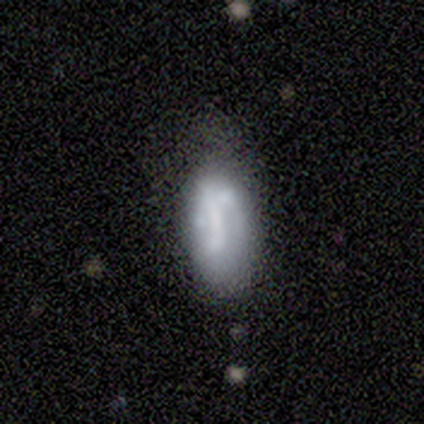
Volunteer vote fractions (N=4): Morphology: type=smooth (75%); roundness=in between (100%); merging=minor disturbance (75%).